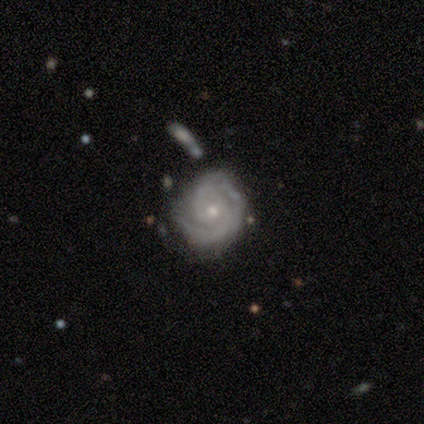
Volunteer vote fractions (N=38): This appears to be a featured or disk galaxy (92%) with no bar (54%), 2 (79%) tight (76%) spiral arms (97%) and a moderate central bulge (49%). Merging: none (70%).